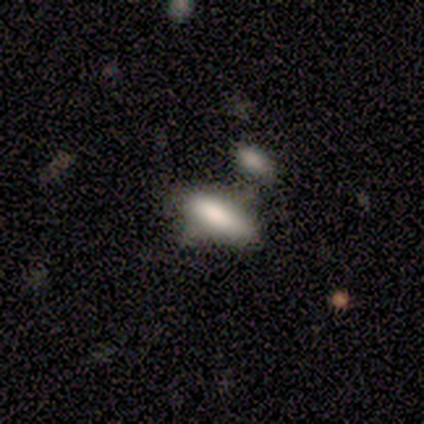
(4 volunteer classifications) A smooth galaxy with no disk features (100%) that is in between round and cigar-shaped (50%, tied with cigar-shaped). Merging: merger (50%).